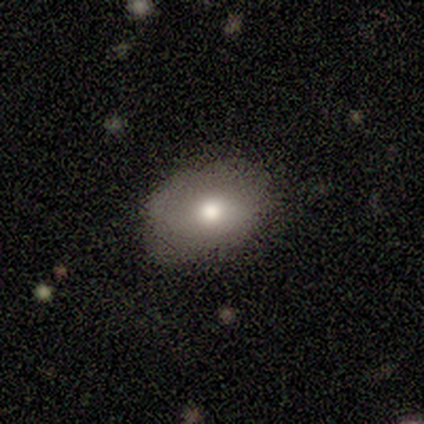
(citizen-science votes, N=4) Overall: smooth (100%). How rounded: in between (100%). Merging: none (50%; minor disturbance 25%).